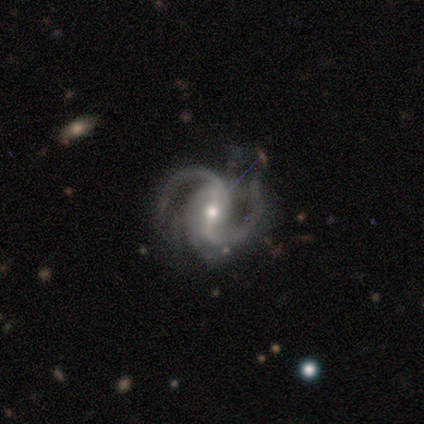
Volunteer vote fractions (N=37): Morphology: type=featured or disk (97%); edge-on=no (100%); bar=strong (58%); spiral arms=yes (100%); winding=medium (61%); arm count=2 (83%); bulge=moderate (64%); merging=none (53%).